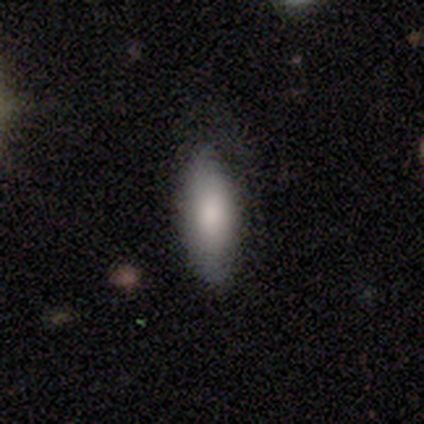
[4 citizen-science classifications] A smooth galaxy with no disk features (100%) that is in between round and cigar-shaped (75%). Merging: none (100%).